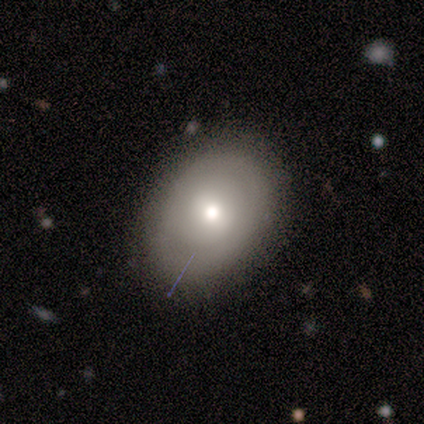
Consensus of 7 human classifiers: smooth_or_featured: featured or disk (p=0.57) [alt: smooth p=0.43]
disk_edge_on: no (p=1.00)
bar: weak (p=0.50) [alt: strong p=0.25]
has_spiral_arms: no (p=0.75) [alt: yes p=0.25]
bulge_size: moderate (p=1.00)
merging: none (p=0.86) [alt: minor disturbance p=0.14]